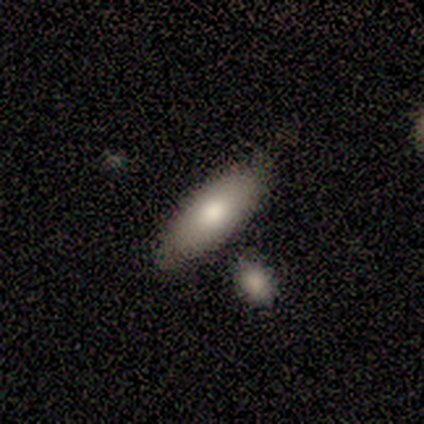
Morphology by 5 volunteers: Smooth or featured: smooth — 60% (featured or disk — 40%)
How rounded: in between — 100%
Merging: none — 60% (minor disturbance — 20%)